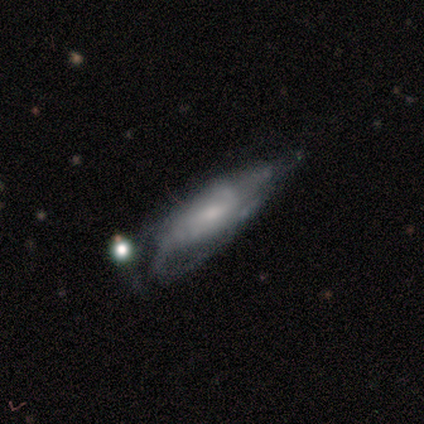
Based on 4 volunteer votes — Smooth or featured? 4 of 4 (100%) said featured or disk. Edge-on disk? 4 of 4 (100%) said no. Bar? 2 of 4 (50%, tied with no) said weak. Spiral arms? 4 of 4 (100%) said yes. Spiral winding? 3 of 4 (75%) said tight. Spiral arm count? 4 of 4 (100%) said can't tell. Bulge size? 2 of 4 (50%) said moderate. Merging? 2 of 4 (50%) said major disturbance.